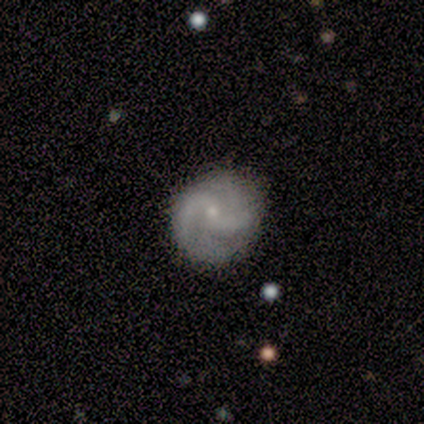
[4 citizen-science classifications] Overall: featured or disk (75%). Edge-on disk: no (100%). Bar: no (100%). Spiral arms: yes (100%). Spiral arm count: can't tell (67%; 2 33%). Spiral winding: loose (67%; medium 33%). Bulge size: small (100%). Merging: none (100%).